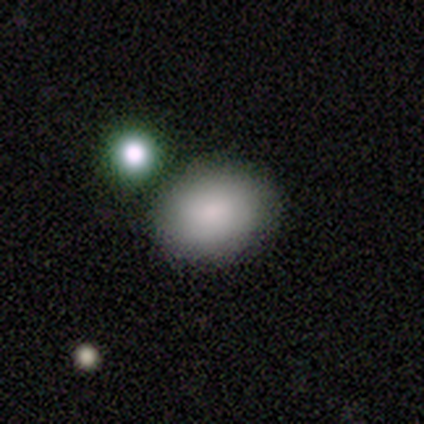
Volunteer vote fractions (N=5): smooth-or-featured: smooth: 80% | featured or disk: 20% | star or artifact: 0%
  how-rounded: round: 50% (tied) | in between: 50% (tied) | cigar-shaped: 0%
  merging: none: 100% | minor disturbance: 0% | major disturbance: 0% | merger: 0%